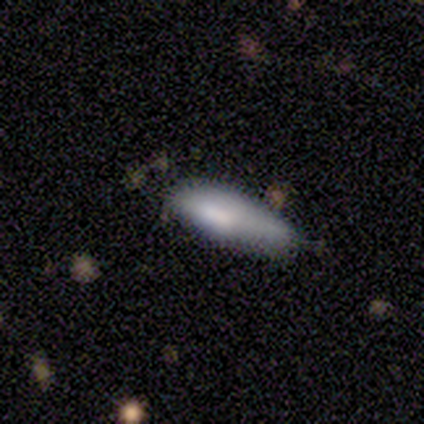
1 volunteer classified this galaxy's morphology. Q: Smooth or featured?
A: smooth (100%)
Q: How rounded?
A: in between (100%)
Q: Merging?
A: none (100%)